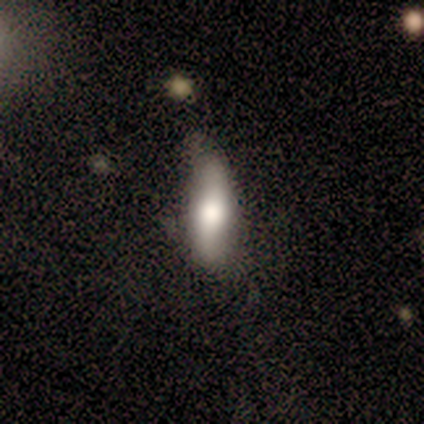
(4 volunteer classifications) Overall: featured or disk (50%; smooth 25%). Edge-on disk: yes (50%, tied with no). Edge-on bulge: rounded (100%). Merging: minor disturbance (67%; none 33%).